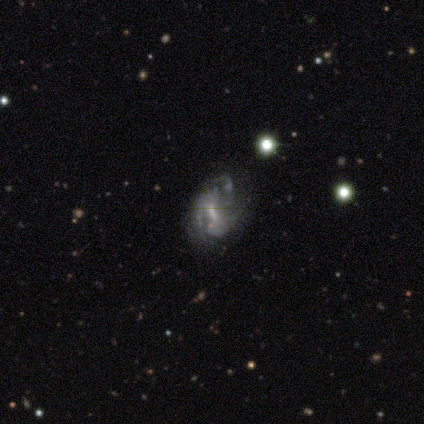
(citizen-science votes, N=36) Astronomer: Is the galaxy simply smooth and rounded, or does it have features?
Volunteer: featured or disk — 86%.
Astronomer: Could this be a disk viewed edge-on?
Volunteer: no — 100%.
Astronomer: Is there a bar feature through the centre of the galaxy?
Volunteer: weak — 42% (runner-up: strong, 32%).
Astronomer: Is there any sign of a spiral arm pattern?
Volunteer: yes — 58% (runner-up: no, 42%).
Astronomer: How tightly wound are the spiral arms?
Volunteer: loose — 50% (runner-up: tight, 28%).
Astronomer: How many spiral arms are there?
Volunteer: can't tell — 44% (runner-up: 2, 28%).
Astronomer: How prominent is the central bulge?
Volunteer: small — 55%.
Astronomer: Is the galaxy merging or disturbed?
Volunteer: major disturbance — 46% (runner-up: none, 31%).